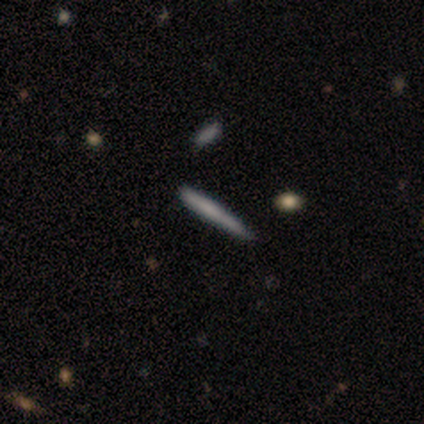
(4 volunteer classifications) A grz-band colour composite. It shows a smooth galaxy with no disk features (50%, tied with featured or disk) that is cigar-shaped (100%). Merging: none (75%).